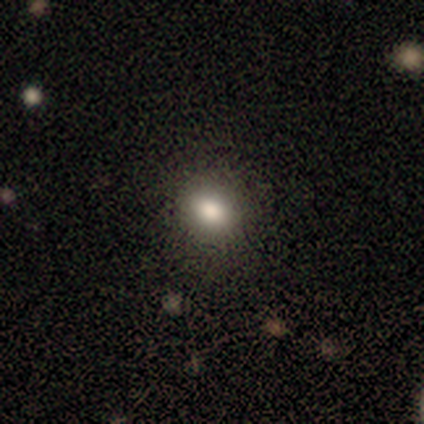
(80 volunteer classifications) Smooth or featured?
  - smooth: 76% *
  - star or artifact: 16%
  - featured or disk: 8%
How rounded?
  - round: 61% *
  - in between: 36%
  - cigar-shaped: 3%
Merging?
  - none: 52% *
  - minor disturbance: 6%
  - merger: 3%
  - major disturbance: 1%